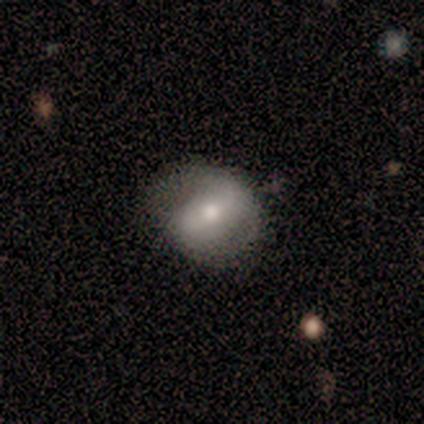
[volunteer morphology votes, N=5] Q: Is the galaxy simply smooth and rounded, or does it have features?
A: smooth — 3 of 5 (60%).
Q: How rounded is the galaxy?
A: in between — 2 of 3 (67%).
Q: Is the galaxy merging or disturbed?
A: none — 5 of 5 (100%).